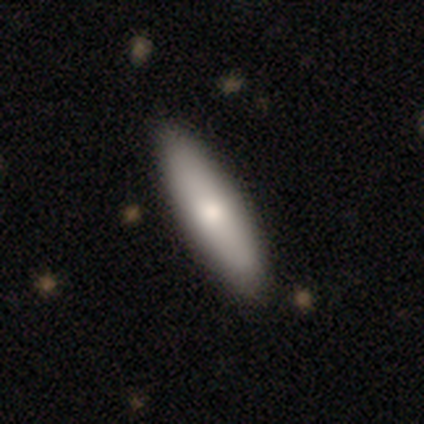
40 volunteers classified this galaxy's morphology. smooth-or-featured: smooth: 80% | featured or disk: 18% | star or artifact: 2%
  how-rounded: cigar-shaped: 56% | in between: 44% | round: 0%
  merging: none: 85% | minor disturbance: 0% | major disturbance: 0% | merger: 0%